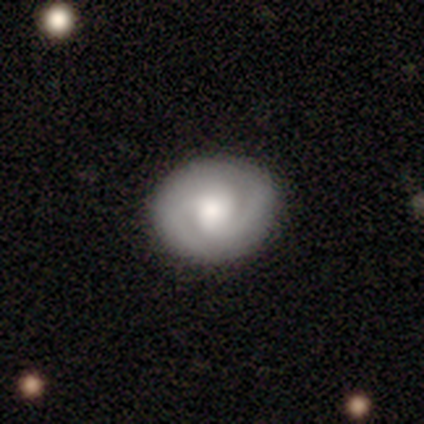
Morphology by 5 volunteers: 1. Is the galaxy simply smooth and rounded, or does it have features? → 60% featured or disk, 40% smooth, 0% star or artifact.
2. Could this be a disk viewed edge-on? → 100% no, 0% yes.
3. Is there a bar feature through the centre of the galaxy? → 67% no, 33% weak, 0% strong.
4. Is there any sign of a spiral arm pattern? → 67% yes, 33% no.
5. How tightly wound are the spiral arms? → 100% medium, 0% tight, 0% loose.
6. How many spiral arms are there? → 100% 2, 0% 1, 0% 3, 0% 4, 0% more than 4, 0% can't tell.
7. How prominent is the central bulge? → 67% moderate, 33% large, 0% dominant, 0% small, 0% none.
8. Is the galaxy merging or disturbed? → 60% none, 40% minor disturbance, 0% major disturbance, 0% merger.